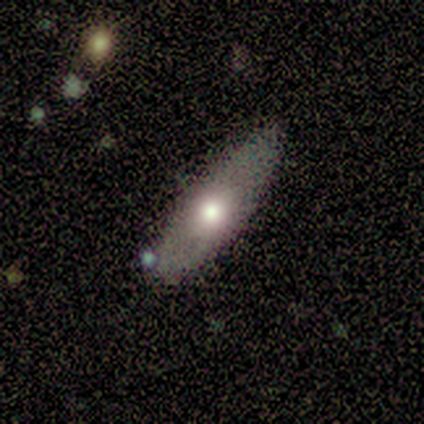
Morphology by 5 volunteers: This appears to be a featured or disk galaxy (60%) viewed edge-on (100%) with a rounded central bulge (100%). Merging: none (80%).